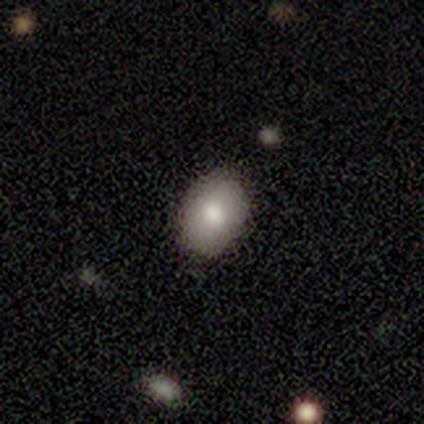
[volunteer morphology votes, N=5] Smooth or featured?
  - smooth: 60% *
  - featured or disk: 20%
  - star or artifact: 20%
How rounded?
  - in between: 100% *
  - round: 0%
  - cigar-shaped: 0%
Merging?
  - none: 75% *
  - minor disturbance: 25%
  - major disturbance: 0%
  - merger: 0%